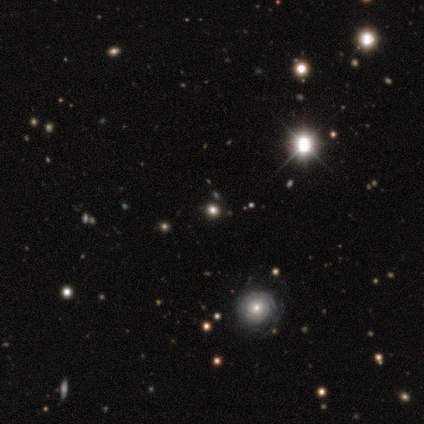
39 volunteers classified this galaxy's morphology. type=star or artifact (51%).